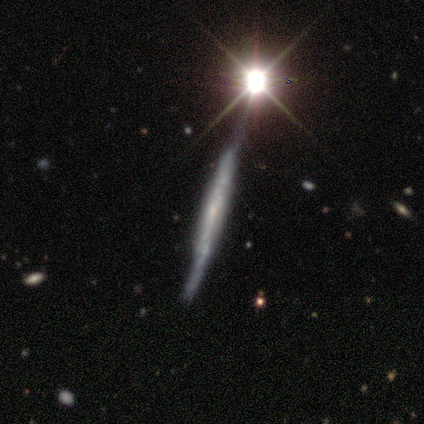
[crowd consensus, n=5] featured or disk 60%, smooth 40%, star or artifact 0%. Down the decision tree: edge-on disk — yes (100%); edge-on bulge — none (67%); merging — none (80%).